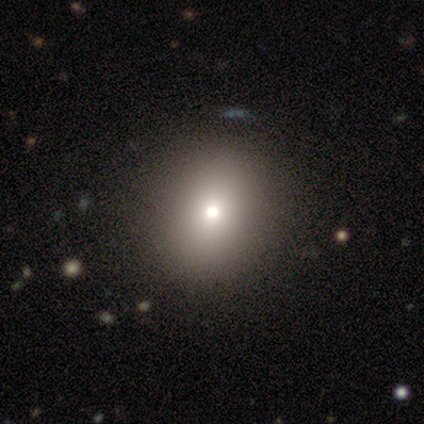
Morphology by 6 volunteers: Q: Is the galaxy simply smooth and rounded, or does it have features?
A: smooth — 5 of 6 (83%).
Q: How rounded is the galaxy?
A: round — 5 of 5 (100%).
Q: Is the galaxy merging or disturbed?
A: none — 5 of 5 (100%).